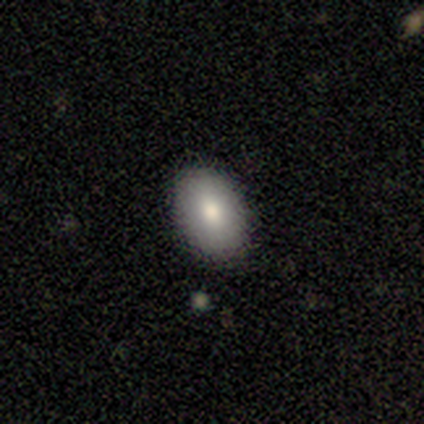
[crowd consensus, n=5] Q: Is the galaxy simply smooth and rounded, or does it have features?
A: smooth — 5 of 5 (100%).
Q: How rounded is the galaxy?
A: in between — 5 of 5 (100%).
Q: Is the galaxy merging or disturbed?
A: none — 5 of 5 (100%).